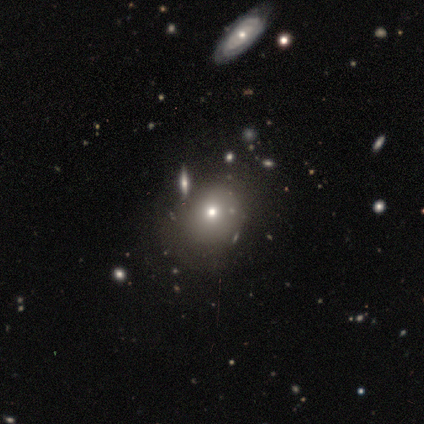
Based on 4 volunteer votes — A smooth galaxy with no disk features (75%) that is round (100%).

Vote fractions:
- Smooth or featured? smooth: 75% / star or artifact: 25% / featured or disk: 0%
- How rounded? round: 100% / in between: 0% / cigar-shaped: 0%
- Merging? none: 100% / minor disturbance: 0% / major disturbance: 0% / merger: 0%